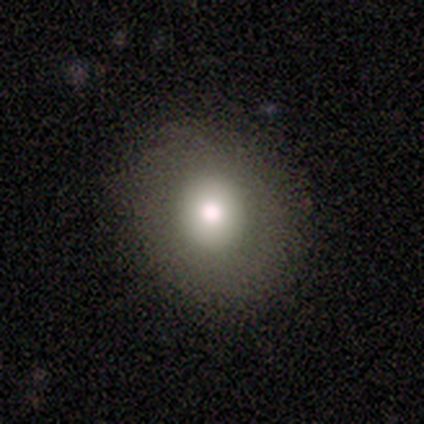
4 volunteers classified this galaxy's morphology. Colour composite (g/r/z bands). It shows a smooth galaxy with no disk features (75%) that is round (100%). Merging: none (100%).